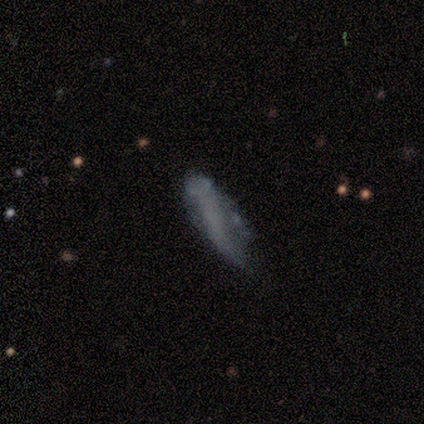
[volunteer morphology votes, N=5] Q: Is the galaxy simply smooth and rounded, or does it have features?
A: smooth — 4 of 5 (80%).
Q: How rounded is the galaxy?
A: cigar-shaped — 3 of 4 (75%).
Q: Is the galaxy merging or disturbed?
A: none — 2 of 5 (40%, tied with minor disturbance).